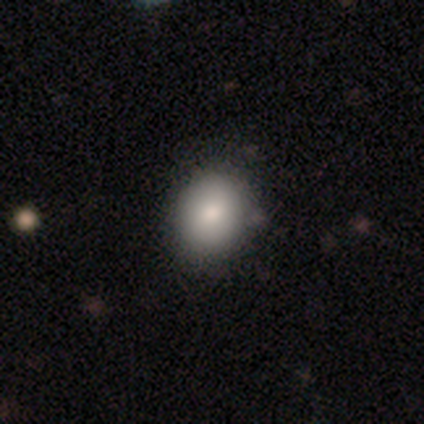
smooth-or-featured: smooth: 85% | featured or disk: 10% | star or artifact: 5%
  how-rounded: round: 70% | in between: 30% | cigar-shaped: 0%
  merging: none: 62% | minor disturbance: 0% | major disturbance: 0% | merger: 0%